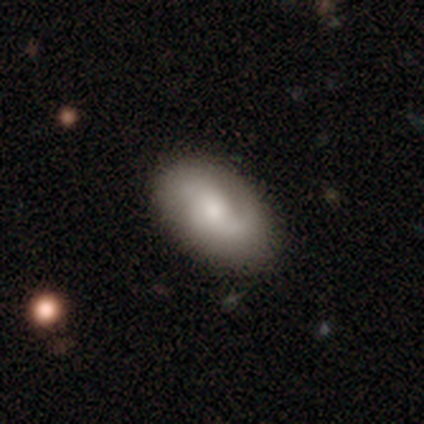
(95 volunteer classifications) Smooth or featured? featured or disk (52%)
Edge-on disk? no (98%)
Bar? no (69%)
Spiral arms? yes (88%)
Spiral winding? loose (40%)
Spiral arm count? 2 (64%)
Bulge size? small (42%)
Merging? none (81%)